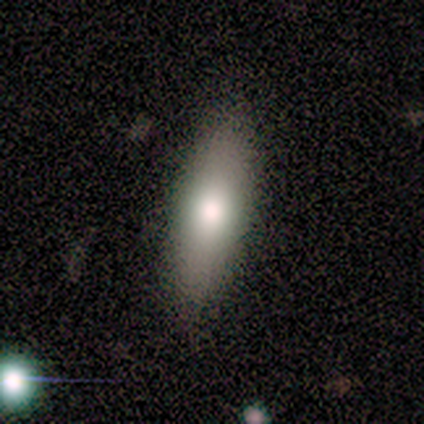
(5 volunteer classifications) Smooth or featured: smooth — 80% (featured or disk — 20%)
How rounded: in between — 75% (round — 25%)
Merging: none — 80% (minor disturbance — 20%)